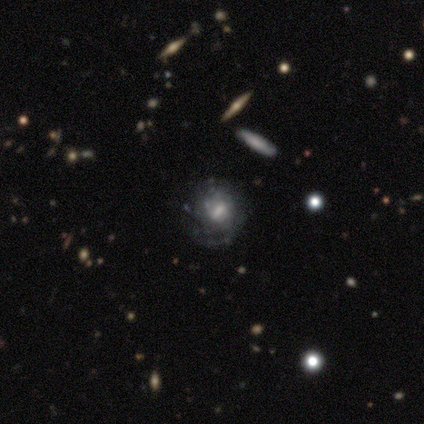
Smooth or featured?
  - featured or disk: 80% *
  - star or artifact: 20%
  - smooth: 0%
Edge-on disk?
  - no: 100% *
  - yes: 0%
Bar?
  - no: 50% *
  - strong: 25%
  - weak: 25%
Spiral arms?
  - yes: 100% *
  - no: 0%
Spiral winding?
  - tight: 50% * (tied)
  - medium: 50% * (tied)
  - loose: 0%
Spiral arm count?
  - 4: 50% * (tied)
  - can't tell: 50% * (tied)
  - 1: 0%
  - 2: 0%
  - 3: 0%
  - more than 4: 0%
Bulge size?
  - moderate: 50% *
  - large: 25%
  - none: 25%
  - dominant: 0%
  - small: 0%
Merging?
  - none: 75% *
  - minor disturbance: 25%
  - major disturbance: 0%
  - merger: 0%